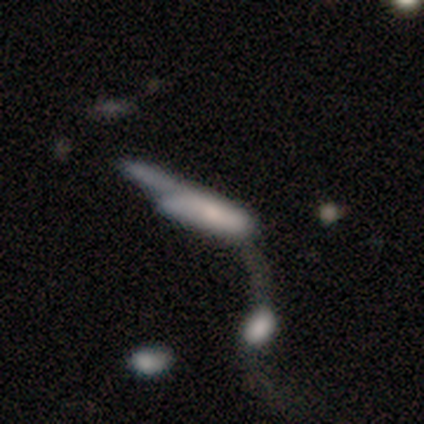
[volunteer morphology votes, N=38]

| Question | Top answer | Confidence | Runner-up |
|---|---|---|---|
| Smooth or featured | smooth | 53% | featured or disk (42%) |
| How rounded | cigar-shaped | 70% | in between (30%) |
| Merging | merger | 58% | major disturbance (31%) |